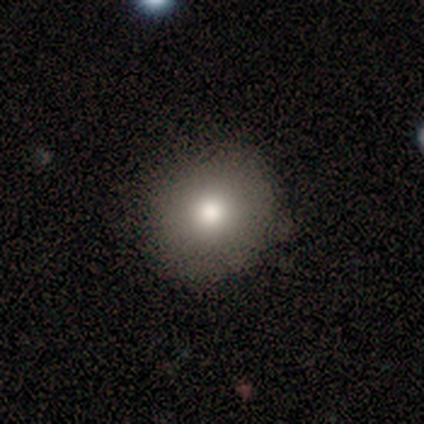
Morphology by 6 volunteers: Q: Smooth or featured?
A: smooth (83%); runner-up: featured or disk (17%)
Q: How rounded?
A: round (100%)
Q: Merging?
A: none (100%)